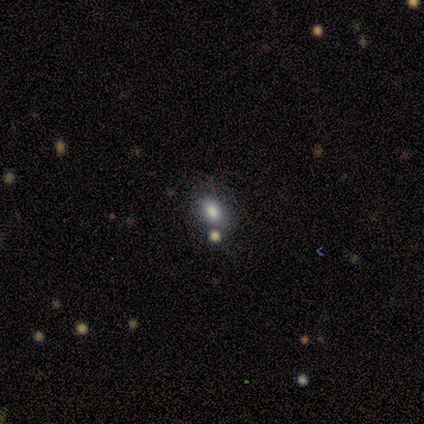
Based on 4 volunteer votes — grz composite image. It shows a smooth galaxy with no disk features (100%) that is in between round and cigar-shaped (75%). Merging: none (50%).